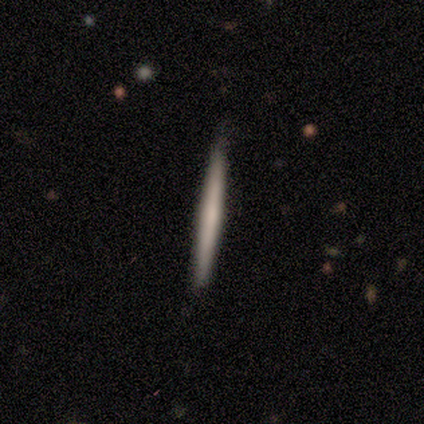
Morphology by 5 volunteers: Overall: smooth (80%). How rounded: cigar-shaped (100%). Merging: none (100%).